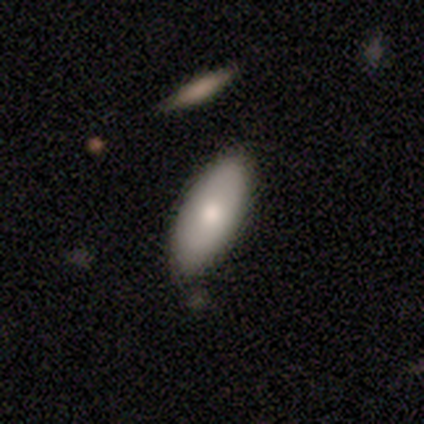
Smooth or featured? smooth (63%)
How rounded? in between (83%)
Merging? none (69%)